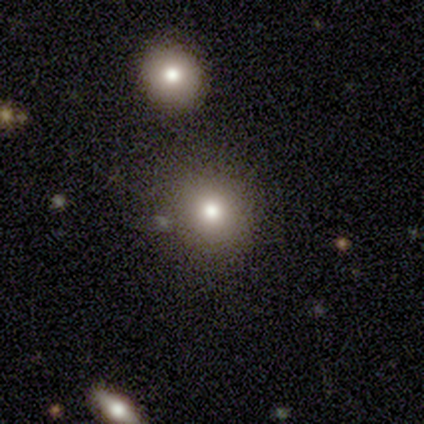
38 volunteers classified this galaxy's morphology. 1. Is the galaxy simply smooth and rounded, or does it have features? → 79% smooth, 16% star or artifact, 5% featured or disk.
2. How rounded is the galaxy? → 77% round, 20% in between, 3% cigar-shaped.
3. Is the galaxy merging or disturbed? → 84% none, 9% merger, 6% minor disturbance, 0% major disturbance.